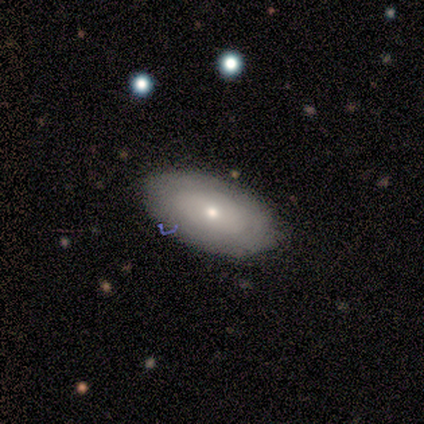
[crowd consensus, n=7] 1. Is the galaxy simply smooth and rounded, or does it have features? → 57% smooth, 29% featured or disk, 14% star or artifact.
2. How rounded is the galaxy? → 100% in between, 0% round, 0% cigar-shaped.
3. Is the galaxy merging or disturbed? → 83% none, 17% minor disturbance, 0% major disturbance, 0% merger.